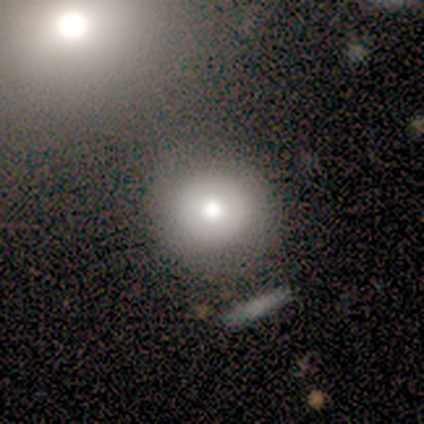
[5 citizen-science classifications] smooth_or_featured: smooth (p=0.80) [alt: star or artifact p=0.20]
how_rounded: round (p=1.00)
merging: none (p=1.00)